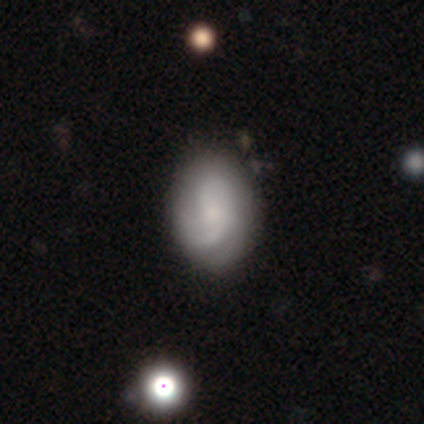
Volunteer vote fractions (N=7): This is possibly a featured or disk galaxy (57%). It is clearly not viewed edge-on (100%). Bar: clearly no (100%). Spiral arm pattern: likely yes (75%). Spiral arm count: likely 2 (67%). Spiral winding: clearly medium (100%). Central bulge: clearly small (100%). Merging: likely none (71%).